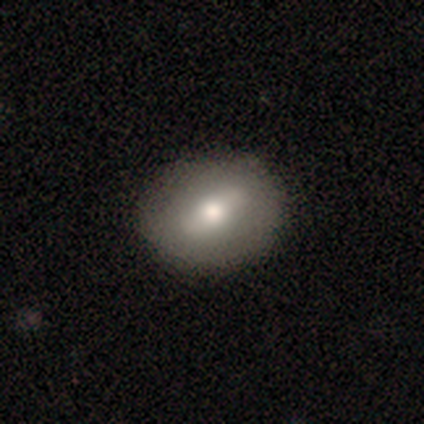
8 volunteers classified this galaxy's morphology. Overall: smooth (62%; featured or disk 38%). How rounded: round (60%; in between 40%). Merging: none (100%).